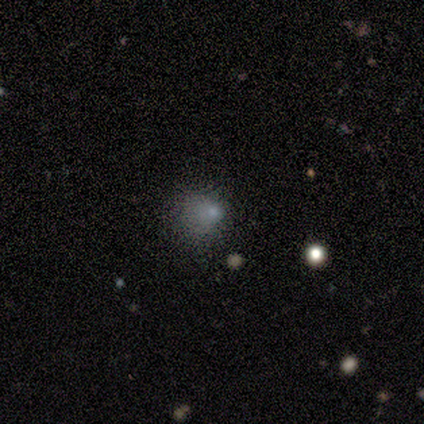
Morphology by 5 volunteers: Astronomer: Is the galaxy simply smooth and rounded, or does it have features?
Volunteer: star or artifact — 60% (runner-up: smooth, 40%).